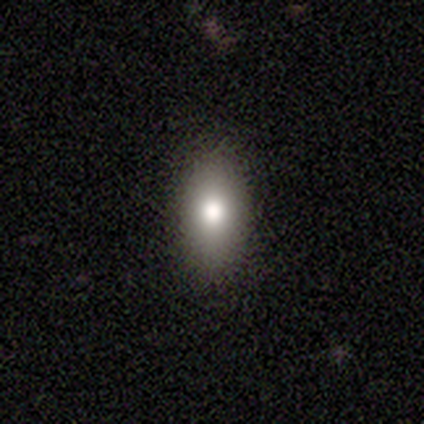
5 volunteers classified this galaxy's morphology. Smooth or featured? smooth (100%)
How rounded? in between (80%)
Merging? none (80%)